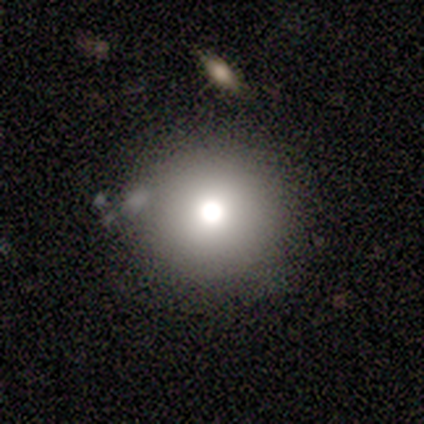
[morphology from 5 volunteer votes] A smooth galaxy with no disk features (60%) that is round (100%).

Vote fractions:
- Smooth or featured? smooth: 60% / featured or disk: 20% / star or artifact: 20%
- How rounded? round: 100% / in between: 0% / cigar-shaped: 0%
- Merging? none: 100% / minor disturbance: 0% / major disturbance: 0% / merger: 0%